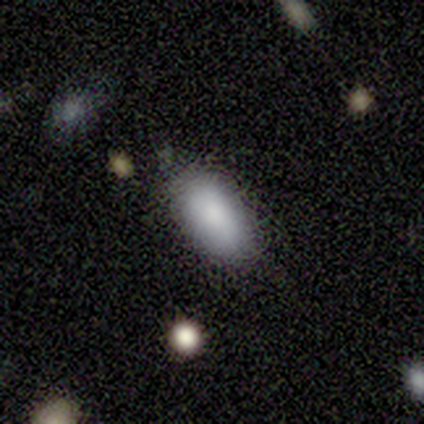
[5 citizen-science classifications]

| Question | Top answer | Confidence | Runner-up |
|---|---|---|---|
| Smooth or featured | smooth | 100% | — |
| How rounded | in between | 100% | — |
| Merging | none | 80% | minor disturbance (20%) |